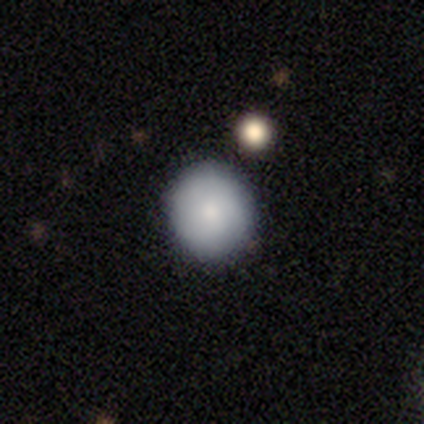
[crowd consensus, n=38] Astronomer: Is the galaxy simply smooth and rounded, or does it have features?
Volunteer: smooth — 82%.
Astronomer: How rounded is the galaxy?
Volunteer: round — 77%.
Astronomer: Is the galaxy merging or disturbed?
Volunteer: none — 82%.